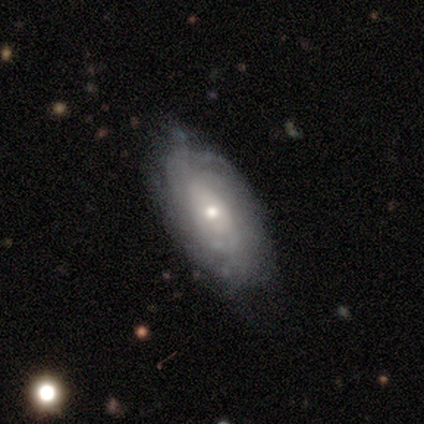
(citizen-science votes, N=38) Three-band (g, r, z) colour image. It shows a featured or disk galaxy (82%) with no bar (81%), tight (81%) spiral arms (78%) and a small central bulge (59%). Merging: none (62%).